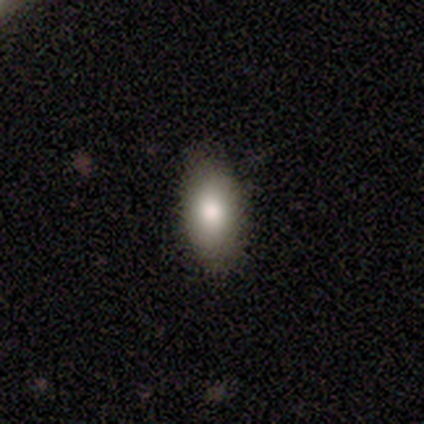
A smooth galaxy with no disk features (69%) that is in between round and cigar-shaped (88%).

Vote fractions:
- Smooth or featured? smooth: 69% / star or artifact: 19% / featured or disk: 11%
- How rounded? in between: 88% / round: 8% / cigar-shaped: 4%
- Merging? none: 90% / minor disturbance: 10% / major disturbance: 0% / merger: 0%